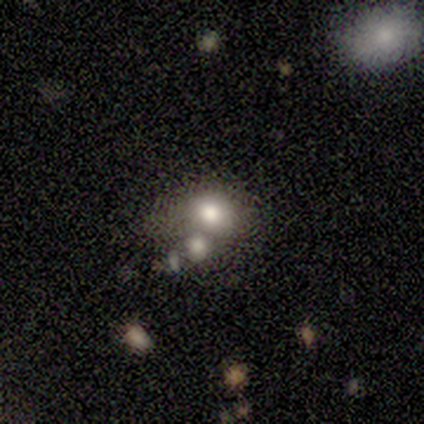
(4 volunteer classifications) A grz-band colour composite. It shows a smooth galaxy with no disk features (50%, tied with featured or disk) that is in between round and cigar-shaped (100%). Merging: merger (50%).